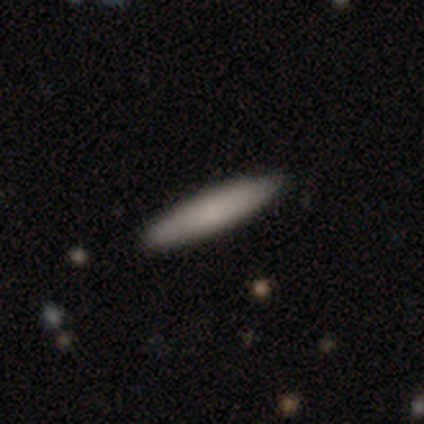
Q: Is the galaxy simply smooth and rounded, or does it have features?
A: smooth — 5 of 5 (100%).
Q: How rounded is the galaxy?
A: cigar-shaped — 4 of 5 (80%).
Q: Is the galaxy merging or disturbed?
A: none — 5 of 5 (100%).